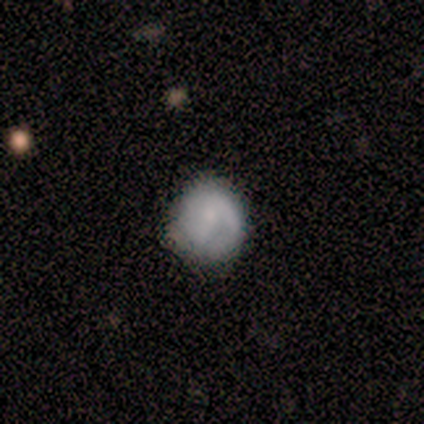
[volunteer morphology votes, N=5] Smooth or featured? smooth (60%)
How rounded? round (100%)
Merging? none (75%)